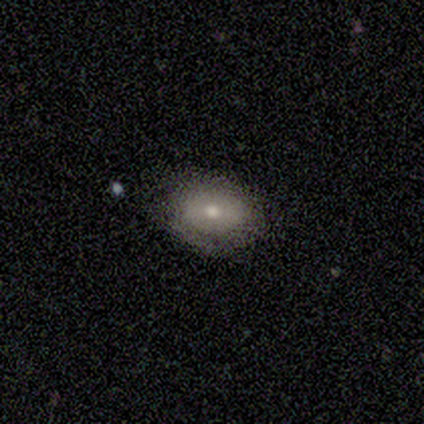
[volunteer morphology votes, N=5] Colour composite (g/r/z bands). It shows a smooth galaxy with no disk features (100%) that is round (40%, tied with in between). Merging: none (80%).